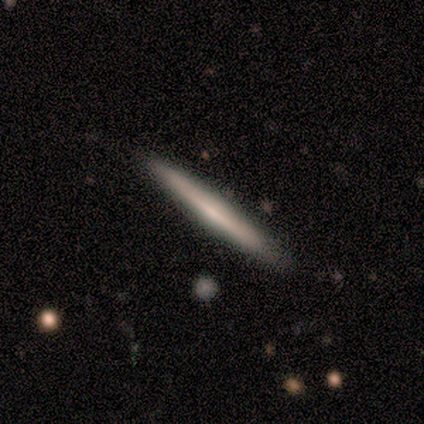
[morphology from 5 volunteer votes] smooth_or_featured: smooth (p=0.60) [alt: featured or disk p=0.20]
how_rounded: cigar-shaped (p=1.00)
merging: none (p=1.00)